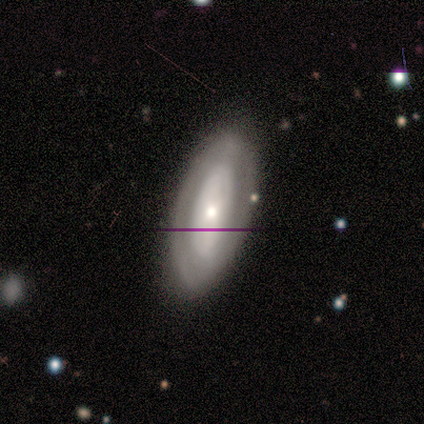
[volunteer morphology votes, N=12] Smooth or featured? featured or disk (58%)
Edge-on disk? no (100%)
Bar? no (100%)
Spiral arms? yes (71%)
Spiral winding? tight (100%)
Spiral arm count? can't tell (100%)
Bulge size? small (57%)
Merging? none (73%)